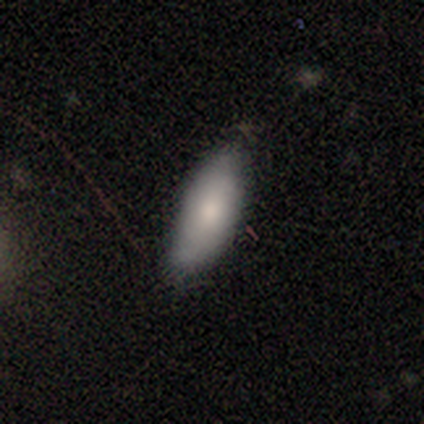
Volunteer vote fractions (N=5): A smooth galaxy with no disk features (60%) that is in between round and cigar-shaped (67%).

Vote fractions:
- Smooth or featured? smooth: 60% / featured or disk: 40% / star or artifact: 0%
- How rounded? in between: 67% / cigar-shaped: 33% / round: 0%
- Merging? none: 60% / minor disturbance: 40% / major disturbance: 0% / merger: 0%